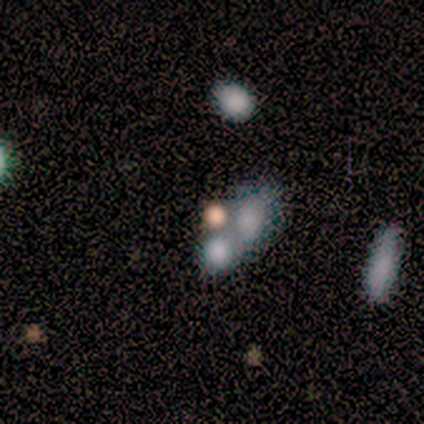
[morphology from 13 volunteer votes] A smooth galaxy with no disk features (54%) that is round (71%).

Vote fractions:
- Smooth or featured? smooth: 54% / featured or disk: 38% / star or artifact: 8%
- How rounded? round: 71% / in between: 29% / cigar-shaped: 0%
- Merging? merger: 58% / none: 25% / minor disturbance: 17% / major disturbance: 0%